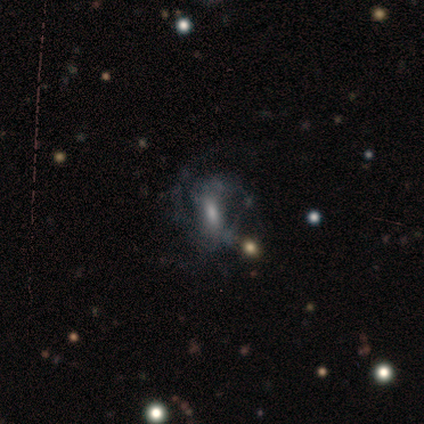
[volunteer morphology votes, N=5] A featured or disk galaxy (80%) with a strong bar (50%), 2 (50%, tied with 3) medium (75%) spiral arms (100%) and no central bulge (50%).

Vote fractions:
- Smooth or featured? featured or disk: 80% / star or artifact: 20% / smooth: 0%
- Edge-on disk? no: 100% / yes: 0%
- Bar? strong: 50% / weak: 25% / no: 25%
- Spiral arms? yes: 100% / no: 0%
- Spiral winding? medium: 75% / loose: 25% / tight: 0%
- Spiral arm count? 2: 50% (tied) / 3: 50% (tied) / 1: 0% / 4: 0% / more than 4: 0% / can't tell: 0%
- Bulge size? none: 50% / moderate: 25% / small: 25% / dominant: 0% / large: 0%
- Merging? none: 50% (tied) / minor disturbance: 50% (tied) / major disturbance: 0% / merger: 0%